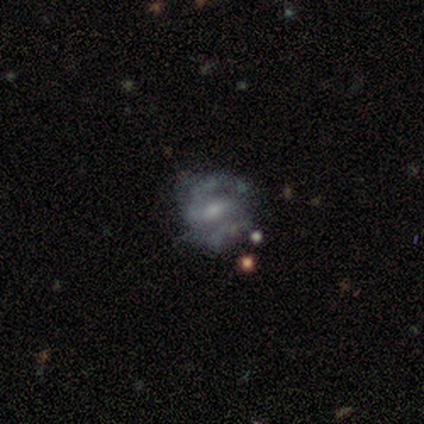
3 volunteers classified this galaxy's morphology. Smooth or featured? 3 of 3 (100%) said featured or disk. Edge-on disk? 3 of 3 (100%) said no. Bar? 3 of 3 (100%) said weak. Spiral arms? 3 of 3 (100%) said yes. Spiral winding? 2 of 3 (67%) said medium. Spiral arm count? 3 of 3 (100%) said 2. Bulge size? 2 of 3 (67%) said small. Merging? 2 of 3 (67%) said none.